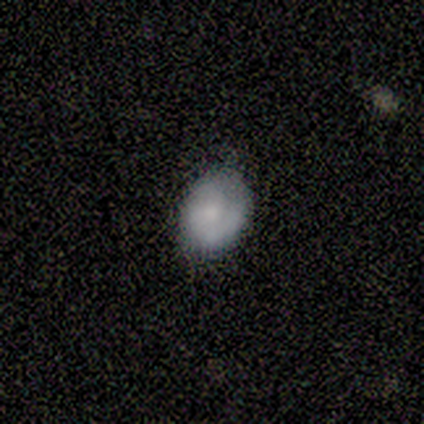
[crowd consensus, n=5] Overall: smooth (60%; featured or disk 20%). How rounded: round (67%; in between 33%). Merging: none (75%).